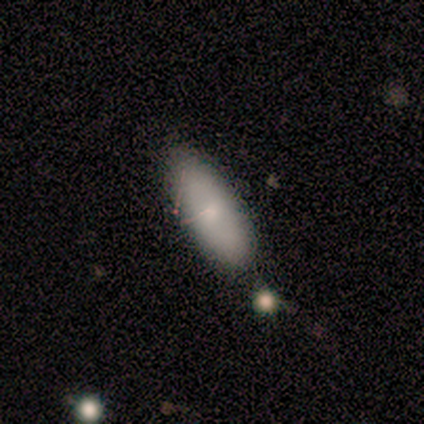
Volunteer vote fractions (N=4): Smooth or featured? 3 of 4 (75%) said smooth. How rounded? 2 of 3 (67%) said cigar-shaped. Merging? 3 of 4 (75%) said none.